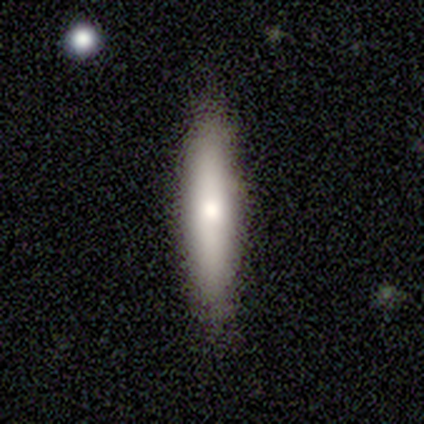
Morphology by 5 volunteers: This is clearly a smooth galaxy (100%). How rounded: clearly cigar-shaped (100%). Merging: clearly none (100%).